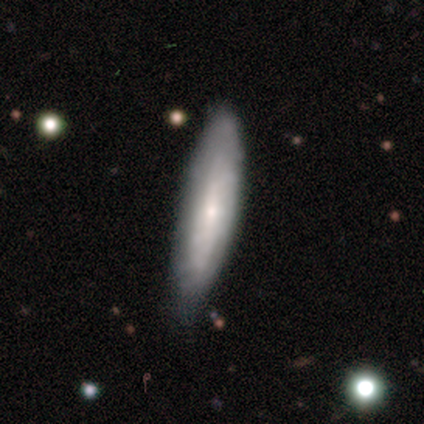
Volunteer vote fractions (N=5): Smooth or featured? 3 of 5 (60%) said featured or disk. Edge-on disk? 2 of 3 (67%) said no. Bar? 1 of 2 (50%, tied with no) said weak. Spiral arms? 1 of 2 (50%, tied with no) said yes. Spiral winding? 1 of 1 (100%) said medium. Spiral arm count? 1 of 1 (100%) said can't tell. Bulge size? 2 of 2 (100%) said small. Merging? 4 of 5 (80%) said none.